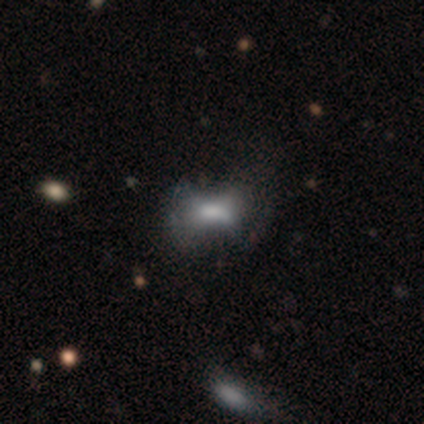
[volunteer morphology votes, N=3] smooth_or_featured: smooth (p=0.67) [alt: featured or disk p=0.33]
how_rounded: round (p=0.50) [tied with: cigar-shaped p=0.50]
merging: none (p=1.00)